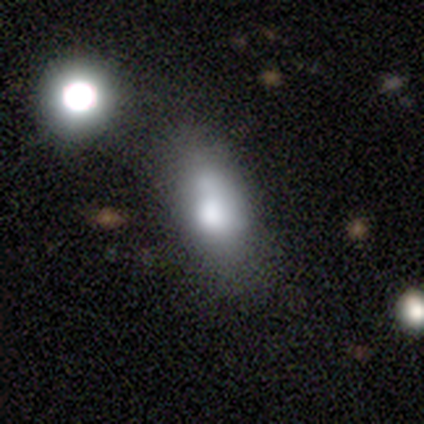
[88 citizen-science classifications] smooth 64%, featured or disk 24%, star or artifact 12%. Down the decision tree: how rounded — in between (77%); merging — none (40%).